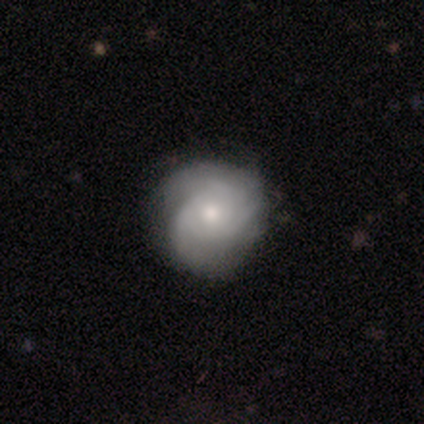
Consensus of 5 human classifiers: Q: Smooth or featured?
A: featured or disk (80%); runner-up: star or artifact (20%)
Q: Edge-on disk?
A: no (100%)
Q: Bar?
A: no (75%); runner-up: weak (25%)
Q: Spiral arms?
A: yes (75%); runner-up: no (25%)
Q: Spiral winding?
A: medium (67%); runner-up: tight (33%)
Q: Spiral arm count?
A: 3 (67%); runner-up: can't tell (33%)
Q: Bulge size?
A: moderate (100%)
Q: Merging?
A: none (75%); runner-up: major disturbance (25%)